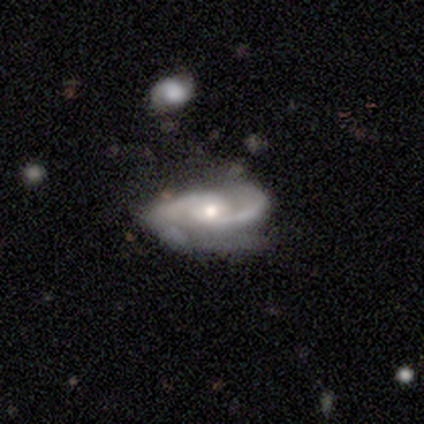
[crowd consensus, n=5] smooth-or-featured: featured or disk: 100% | smooth: 0% | star or artifact: 0%
  disk-edge-on: no: 100% | yes: 0%
    bar: no: 60% | strong: 20% | weak: 20%
    has-spiral-arms: yes: 80% | no: 20%
      spiral-winding: tight: 50% (tied) | medium: 50% (tied) | loose: 0%
      spiral-arm-count: 2: 100% | 1: 0% | 3: 0% | 4: 0% | more than 4: 0% | can't tell: 0%
    bulge-size: small: 60% | moderate: 40% | dominant: 0% | large: 0% | none: 0%
  merging: none: 80% | major disturbance: 20% | minor disturbance: 0% | merger: 0%